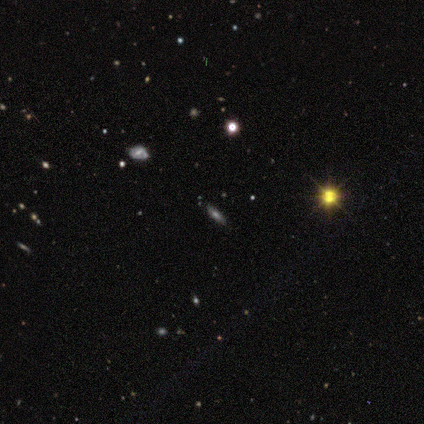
Smooth or featured: smooth — 50% (tied with featured or disk — 50%)
How rounded: cigar-shaped — 100%
Merging: none — 100%